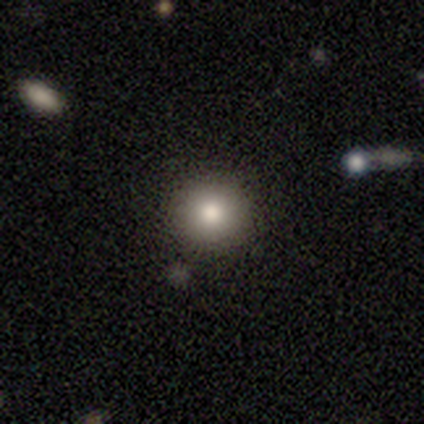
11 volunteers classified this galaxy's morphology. Smooth or featured? smooth (73%)
How rounded? round (100%)
Merging? none (100%)